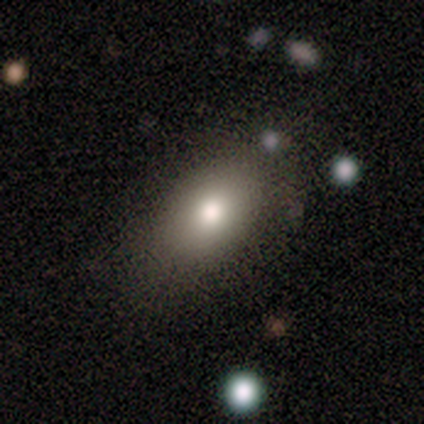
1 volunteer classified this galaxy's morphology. type=featured or disk (100%); edge-on=no (100%); bar=no (100%); spiral arms=no (100%); bulge=moderate (100%); merging=none (100%).